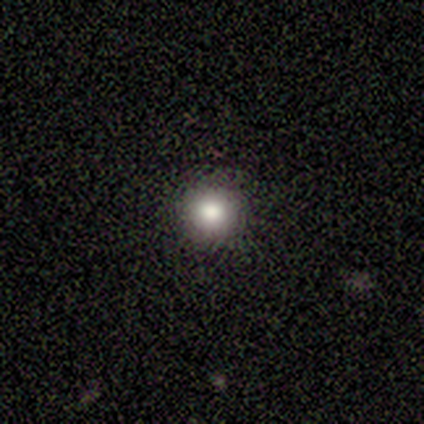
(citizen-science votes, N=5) smooth-or-featured: smooth: 100% | featured or disk: 0% | star or artifact: 0%
  how-rounded: round: 80% | in between: 20% | cigar-shaped: 0%
  merging: none: 100% | minor disturbance: 0% | major disturbance: 0% | merger: 0%